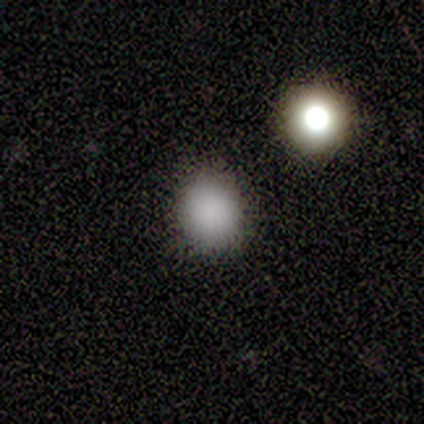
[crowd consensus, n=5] Morphology: type=smooth (100%); roundness=in between (60%); merging=none (100%).